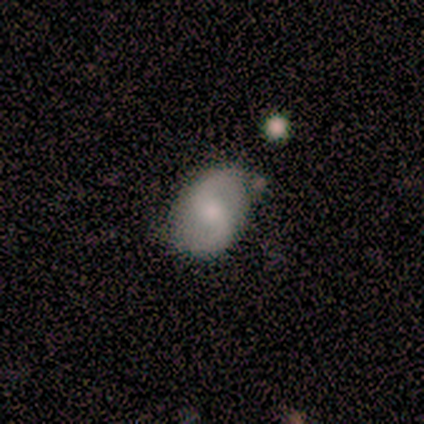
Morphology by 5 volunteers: Smooth or featured? 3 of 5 (60%) said featured or disk. Edge-on disk? 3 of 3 (100%) said no. Bar? 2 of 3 (67%) said no. Spiral arms? 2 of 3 (67%) said yes. Spiral winding? 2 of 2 (100%) said medium. Spiral arm count? 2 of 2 (100%) said 2. Bulge size? 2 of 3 (67%) said moderate. Merging? 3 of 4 (75%) said none.